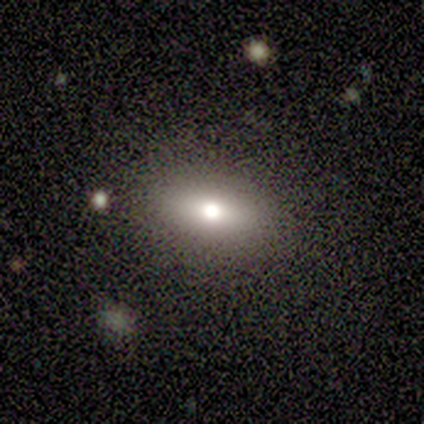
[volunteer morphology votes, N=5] A smooth galaxy with no disk features (80%) that is in between round and cigar-shaped (100%). Merging: none (75%).